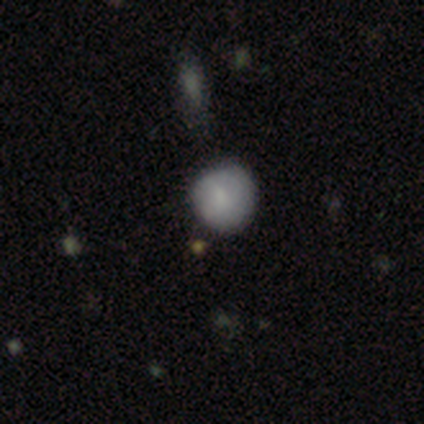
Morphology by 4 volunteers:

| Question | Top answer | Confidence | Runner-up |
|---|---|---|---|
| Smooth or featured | smooth | 75% | star or artifact (25%) |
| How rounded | round | 100% | — |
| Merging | none | 100% | — |